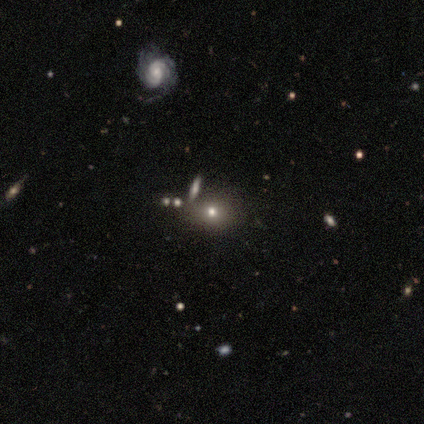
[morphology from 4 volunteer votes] This appears to be a smooth galaxy with no disk features (50%, tied with featured or disk) that is in between round and cigar-shaped (50%, tied with cigar-shaped). Merging: merger (50%).